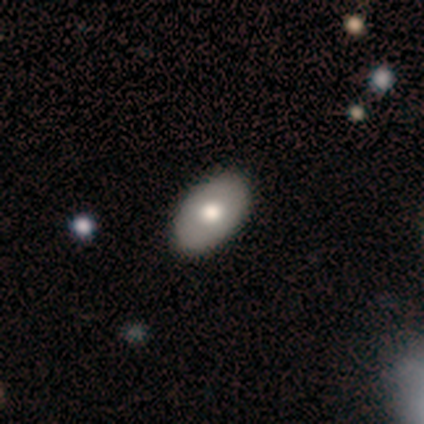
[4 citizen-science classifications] A smooth galaxy with no disk features (100%) that is in between round and cigar-shaped (100%). Merging: none (100%).